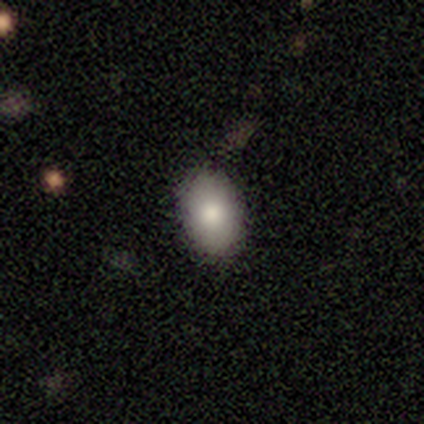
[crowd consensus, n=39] Smooth or featured? smooth (72%)
How rounded? in between (89%)
Merging? none (94%)